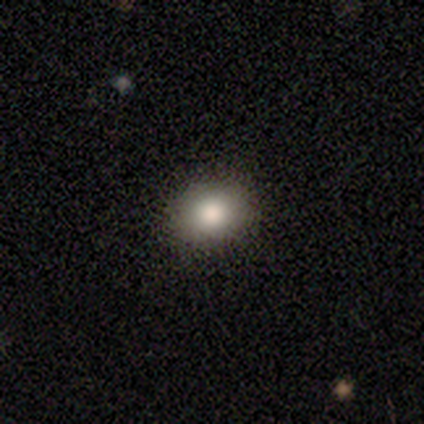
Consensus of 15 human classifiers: smooth 87%, star or artifact 13%, featured or disk 0%. Down the decision tree: how rounded — in between (54%); merging — none (92%).